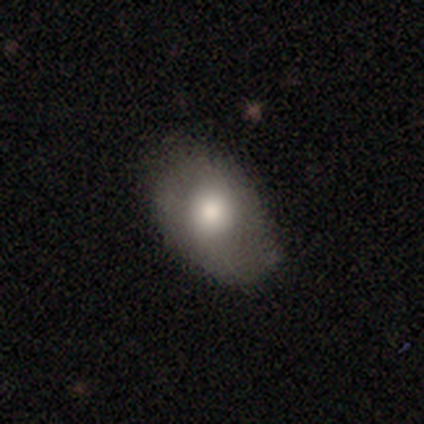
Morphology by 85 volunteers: A smooth galaxy with no disk features (60%) that is in between round and cigar-shaped (88%).

Vote fractions:
- Smooth or featured? smooth: 60% / featured or disk: 33% / star or artifact: 7%
- How rounded? in between: 88% / round: 12% / cigar-shaped: 0%
- Merging? none: 70% / minor disturbance: 23% / major disturbance: 8% / merger: 0%